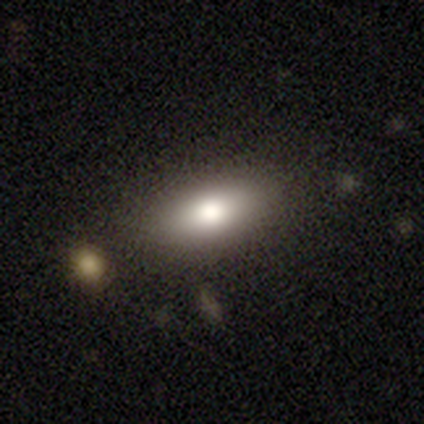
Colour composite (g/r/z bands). It shows a smooth galaxy with no disk features (80%) that is in between round and cigar-shaped (100%). Merging: none (100%).